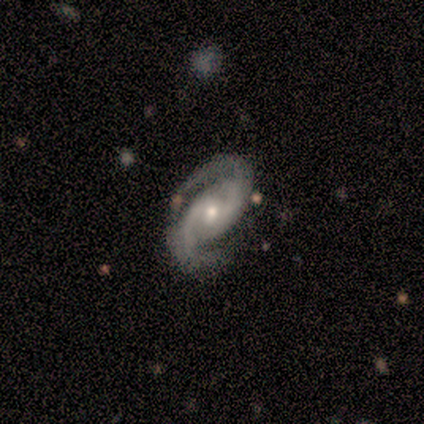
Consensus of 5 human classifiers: A featured or disk galaxy (100%) with no bar (60%), 2 (100%) medium (80%) spiral arms (100%) and a moderate central bulge (100%).

Vote fractions:
- Smooth or featured? featured or disk: 100% / smooth: 0% / star or artifact: 0%
- Edge-on disk? no: 100% / yes: 0%
- Bar? no: 60% / weak: 40% / strong: 0%
- Spiral arms? yes: 100% / no: 0%
- Spiral winding? medium: 80% / tight: 20% / loose: 0%
- Spiral arm count? 2: 100% / 1: 0% / 3: 0% / 4: 0% / more than 4: 0% / can't tell: 0%
- Bulge size? moderate: 100% / dominant: 0% / large: 0% / small: 0% / none: 0%
- Merging? none: 80% / major disturbance: 20% / minor disturbance: 0% / merger: 0%